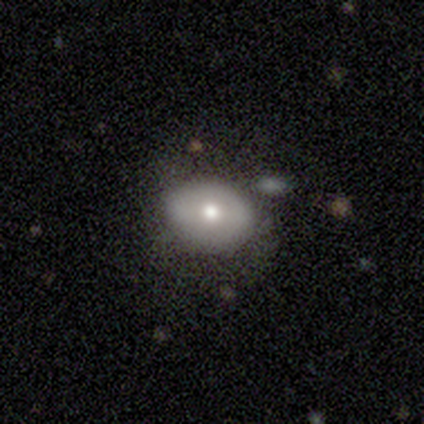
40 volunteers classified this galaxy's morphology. type=smooth (45%); roundness=in between (61%); merging=none (71%).